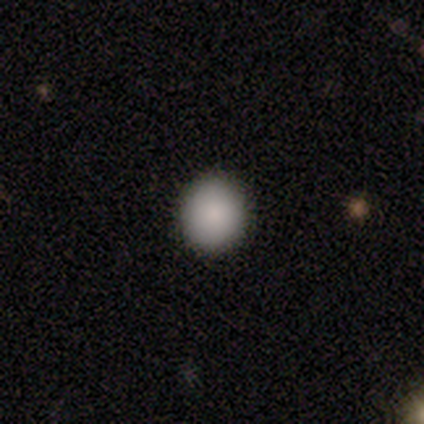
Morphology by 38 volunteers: Q: Smooth or featured?
A: smooth (89%); runner-up: featured or disk (5%)
Q: How rounded?
A: round (88%); runner-up: in between (12%)
Q: Merging?
A: none (89%); runner-up: minor disturbance (11%)